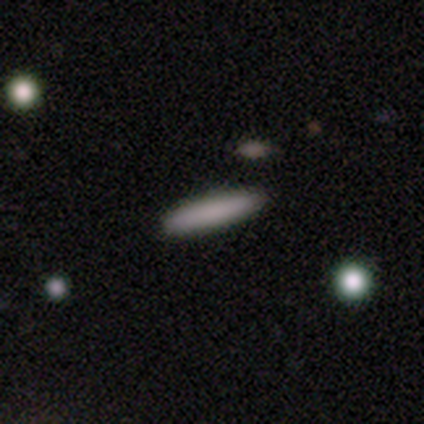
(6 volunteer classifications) Smooth or featured: smooth — 100%
How rounded: cigar-shaped — 100%
Merging: none — 100%